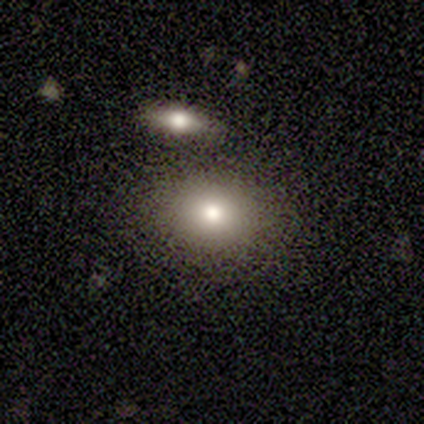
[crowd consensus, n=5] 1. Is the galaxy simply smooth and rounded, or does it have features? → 60% smooth, 40% star or artifact, 0% featured or disk.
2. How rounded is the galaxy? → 67% round, 33% in between, 0% cigar-shaped.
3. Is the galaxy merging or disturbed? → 100% none, 0% minor disturbance, 0% major disturbance, 0% merger.